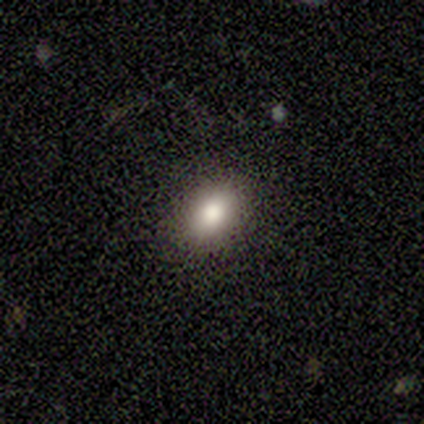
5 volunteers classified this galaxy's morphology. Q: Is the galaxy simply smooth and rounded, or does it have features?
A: smooth — 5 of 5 (100%).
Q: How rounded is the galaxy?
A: in between — 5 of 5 (100%).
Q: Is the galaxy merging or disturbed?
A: none — 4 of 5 (80%).